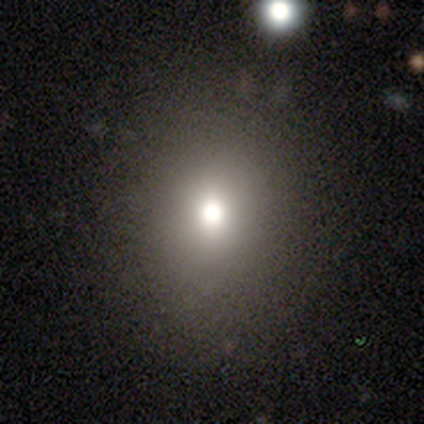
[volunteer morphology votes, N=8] Smooth or featured? 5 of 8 (62%) said star or artifact.